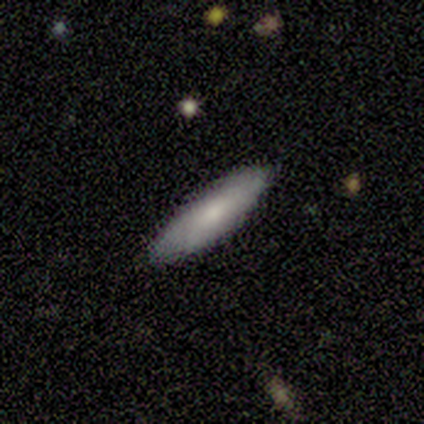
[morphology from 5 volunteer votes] smooth-or-featured: smooth: 60% | featured or disk: 40% | star or artifact: 0%
  how-rounded: in between: 100% | round: 0% | cigar-shaped: 0%
  merging: none: 100% | minor disturbance: 0% | major disturbance: 0% | merger: 0%